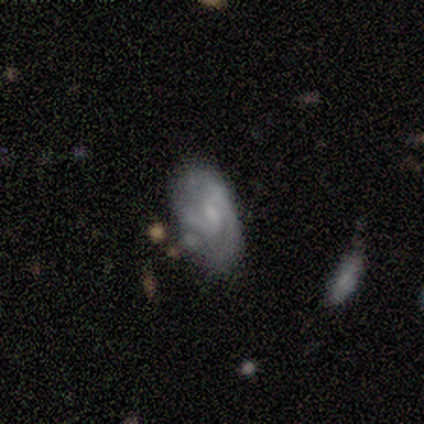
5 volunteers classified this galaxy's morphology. Q: Smooth or featured?
A: featured or disk (60%); runner-up: smooth (40%)
Q: Edge-on disk?
A: no (100%)
Q: Bar?
A: no (67%); runner-up: weak (33%)
Q: Spiral arms?
A: yes (67%); runner-up: no (33%)
Q: Spiral winding?
A: tight (50%); tied with: medium (50%)
Q: Spiral arm count?
A: 2 (100%)
Q: Bulge size?
A: small (67%); runner-up: none (33%)
Q: Merging?
A: none (60%); runner-up: minor disturbance (40%)